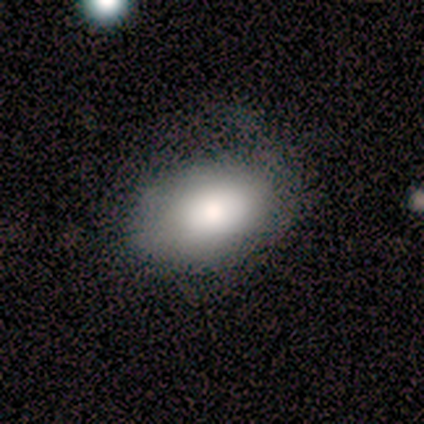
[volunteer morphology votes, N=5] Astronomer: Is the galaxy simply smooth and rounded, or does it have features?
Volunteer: smooth — 100%.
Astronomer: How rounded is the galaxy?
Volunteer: in between — 100%.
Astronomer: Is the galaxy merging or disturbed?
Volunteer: none — 40%, tied with minor disturbance at 40%.